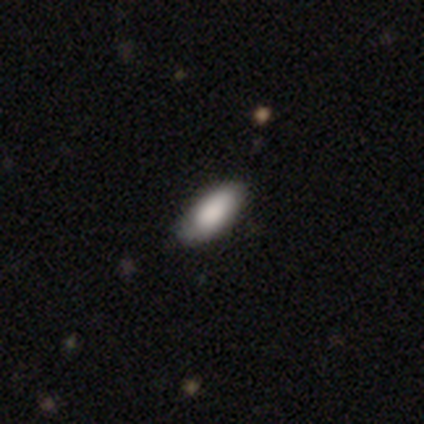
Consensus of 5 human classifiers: This is clearly a smooth galaxy (80%). How rounded: likely in between (75%). Merging: likely none (60%).